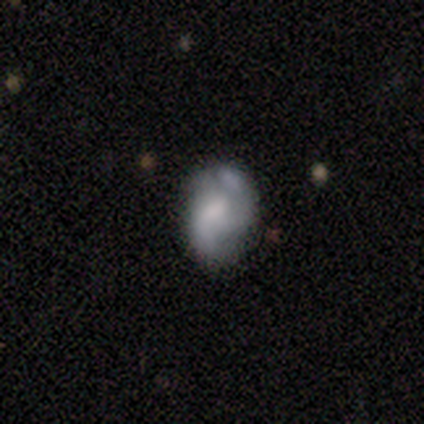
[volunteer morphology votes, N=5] smooth_or_featured: smooth (p=0.60) [alt: featured or disk p=0.40]
how_rounded: in between (p=0.67) [alt: round p=0.33]
merging: major disturbance (p=0.60) [alt: minor disturbance p=0.20]